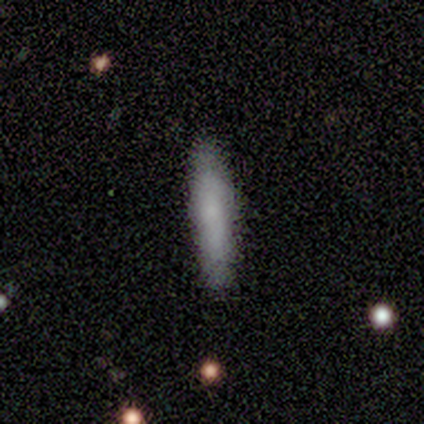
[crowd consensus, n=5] Smooth or featured? smooth (80%)
How rounded? cigar-shaped (100%)
Merging? none (100%)